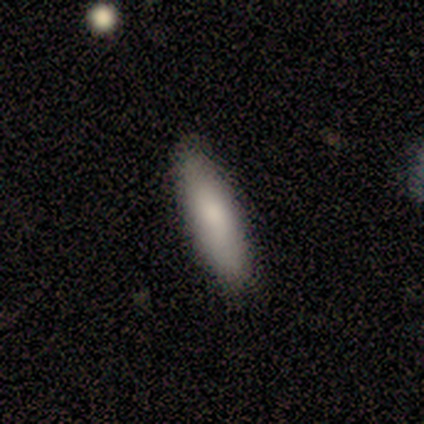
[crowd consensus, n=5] smooth-or-featured: smooth: 80% | featured or disk: 20% | star or artifact: 0%
  how-rounded: in between: 100% | round: 0% | cigar-shaped: 0%
  merging: none: 100% | minor disturbance: 0% | major disturbance: 0% | merger: 0%